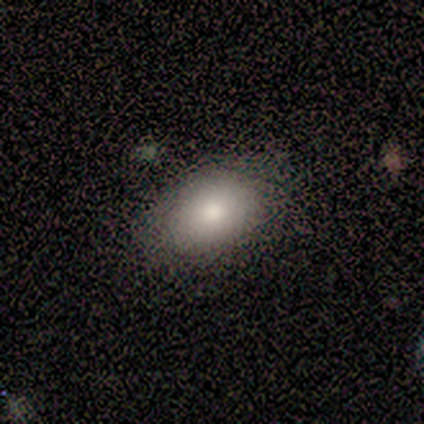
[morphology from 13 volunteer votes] Smooth or featured?
  - smooth: 85% *
  - featured or disk: 8%
  - star or artifact: 8%
How rounded?
  - in between: 82% *
  - round: 18%
  - cigar-shaped: 0%
Merging?
  - none: 83% *
  - minor disturbance: 17%
  - major disturbance: 0%
  - merger: 0%